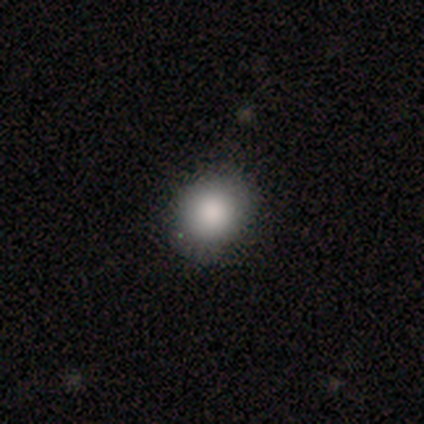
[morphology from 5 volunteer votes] This is clearly a smooth galaxy (100%). How rounded: clearly round (80%). Merging: clearly none (80%).